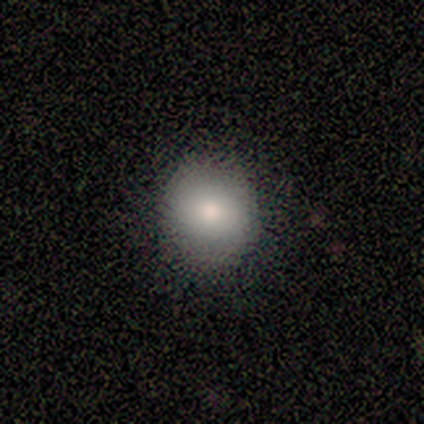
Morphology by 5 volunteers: smooth-or-featured: smooth: 80% | star or artifact: 20% | featured or disk: 0%
  how-rounded: round: 75% | in between: 25% | cigar-shaped: 0%
  merging: none: 50% (tied) | minor disturbance: 50% (tied) | major disturbance: 0% | merger: 0%